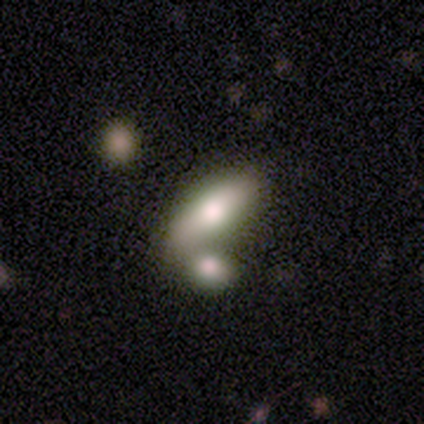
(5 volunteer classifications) smooth_or_featured: smooth (p=0.80) [alt: star or artifact p=0.20]
how_rounded: in between (p=0.75) [alt: cigar-shaped p=0.25]
merging: merger (p=0.50) [alt: none p=0.25]